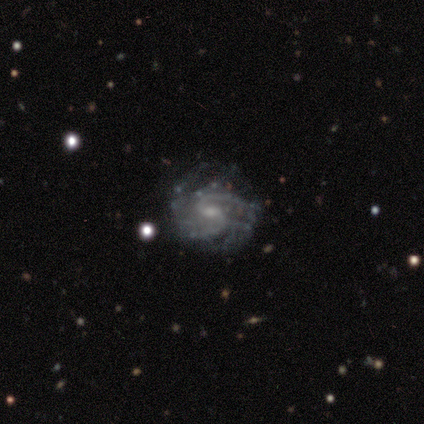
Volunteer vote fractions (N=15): A featured or disk galaxy (100%) with a weak bar (53%), 2 (93%) medium (57%) spiral arms (93%) and a small central bulge (80%). Merging: none (47%, tied with minor disturbance).